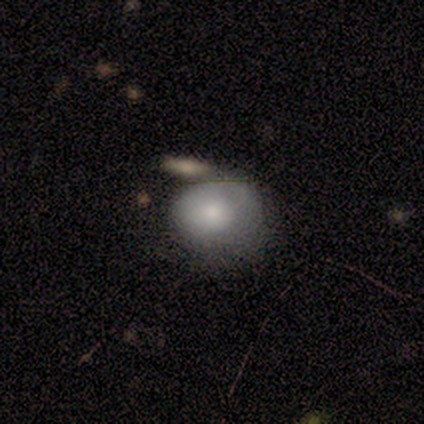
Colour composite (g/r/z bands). It shows a smooth galaxy with no disk features (50%) that is round (67%). Merging: none (40%, tied with major disturbance).